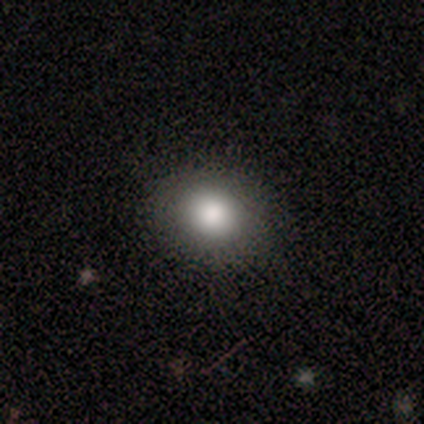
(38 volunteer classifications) Smooth or featured: smooth — 82% (star or artifact — 11%)
How rounded: round — 58% (in between — 42%)
Merging: none — 88% (minor disturbance — 9%)